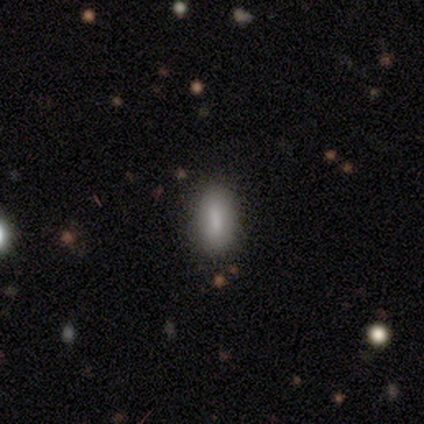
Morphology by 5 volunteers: smooth-or-featured: smooth: 60% | star or artifact: 40% | featured or disk: 0%
  how-rounded: in between: 100% | round: 0% | cigar-shaped: 0%
  merging: none: 100% | minor disturbance: 0% | major disturbance: 0% | merger: 0%